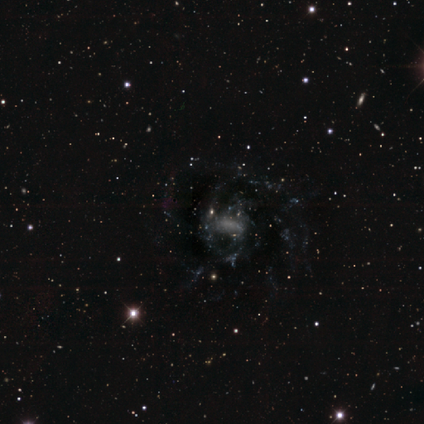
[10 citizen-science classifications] Q: Smooth or featured?
A: featured or disk (80%); runner-up: smooth (20%)
Q: Edge-on disk?
A: no (100%)
Q: Bar?
A: weak (75%); runner-up: strong (12%)
Q: Spiral arms?
A: yes (88%); runner-up: no (12%)
Q: Spiral winding?
A: medium (57%); runner-up: tight (43%)
Q: Spiral arm count?
A: more than 4 (43%); runner-up: 3 (29%)
Q: Bulge size?
A: none (38%); runner-up: large (25%)
Q: Merging?
A: none (80%); runner-up: major disturbance (10%)